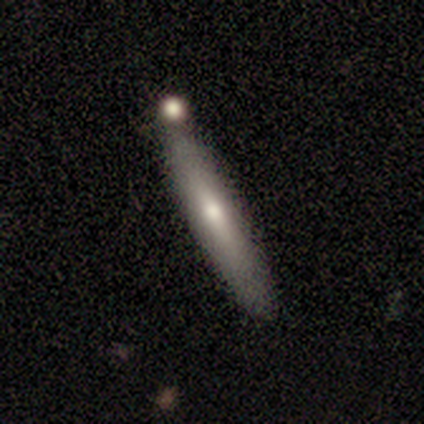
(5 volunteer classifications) Smooth or featured?
  - featured or disk: 60% *
  - smooth: 20%
  - star or artifact: 20%
Edge-on disk?
  - yes: 100% *
  - no: 0%
Edge-on bulge?
  - none: 67% *
  - rounded: 33%
  - boxy: 0%
Merging?
  - none: 100% *
  - minor disturbance: 0%
  - major disturbance: 0%
  - merger: 0%